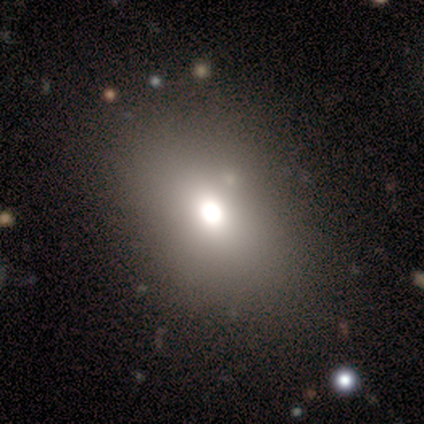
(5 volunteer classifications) A smooth galaxy with no disk features (100%) that is in between round and cigar-shaped (80%).

Vote fractions:
- Smooth or featured? smooth: 100% / featured or disk: 0% / star or artifact: 0%
- How rounded? in between: 80% / round: 20% / cigar-shaped: 0%
- Merging? none: 100% / minor disturbance: 0% / major disturbance: 0% / merger: 0%